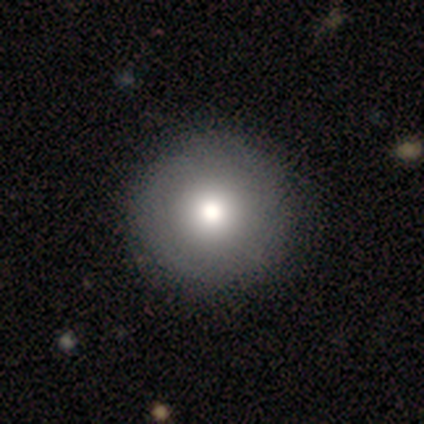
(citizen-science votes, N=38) smooth 76%, featured or disk 16%, star or artifact 8%. Down the decision tree: how rounded — round (97%); merging — none (91%).